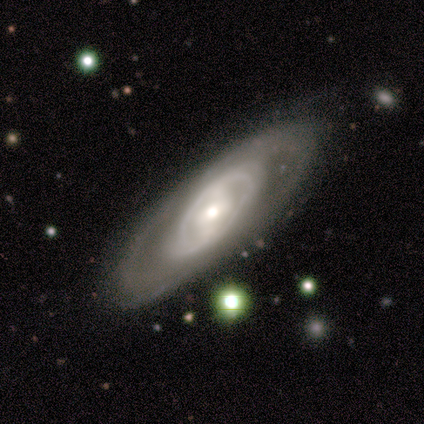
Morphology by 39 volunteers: Smooth or featured? 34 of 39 (87%) said featured or disk. Edge-on disk? 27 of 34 (79%) said no. Bar? 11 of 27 (41%) said weak. Spiral arms? 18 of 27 (67%) said yes. Spiral winding? 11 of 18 (61%) said tight. Spiral arm count? 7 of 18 (39%) said can't tell. Bulge size? 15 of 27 (56%) said moderate. Merging? 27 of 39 (69%) said none.